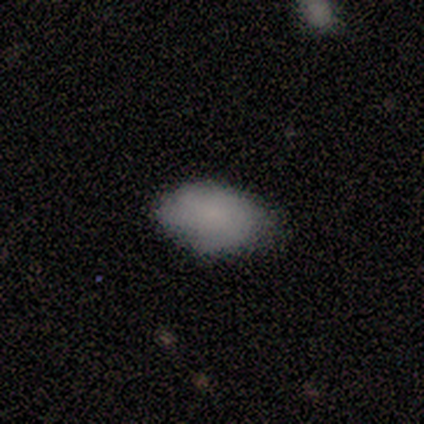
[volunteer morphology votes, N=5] type=smooth (100%); roundness=in between (100%); merging=none (100%).